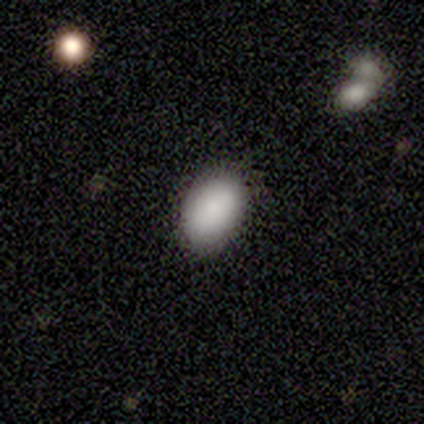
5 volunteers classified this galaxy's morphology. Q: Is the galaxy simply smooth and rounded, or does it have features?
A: smooth — 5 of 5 (100%).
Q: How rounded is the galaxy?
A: in between — 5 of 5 (100%).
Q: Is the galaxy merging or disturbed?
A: none — 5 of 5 (100%).